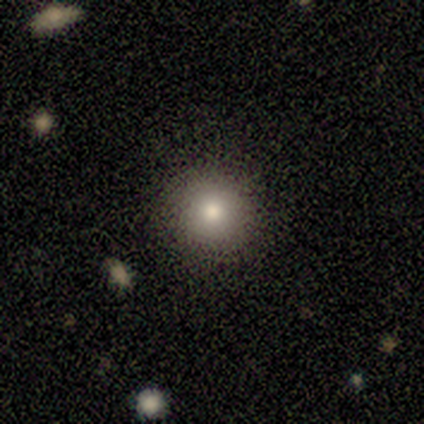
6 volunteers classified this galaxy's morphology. type=smooth (67%); roundness=round (100%); merging=none (100%).